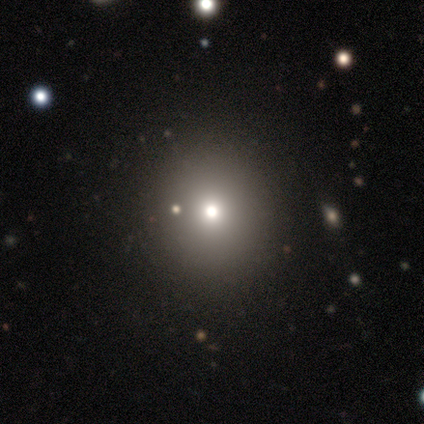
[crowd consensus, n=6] Smooth or featured? smooth (67%)
How rounded? round (100%)
Merging? none (75%)